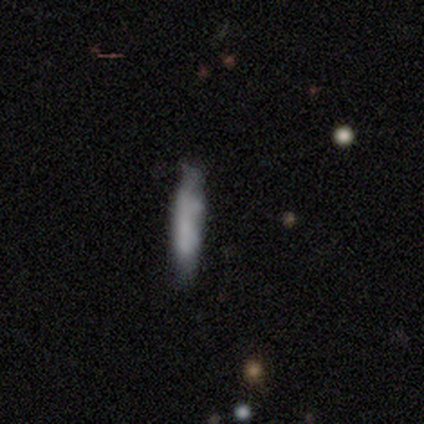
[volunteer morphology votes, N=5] type=smooth (40%, tied with star or artifact); roundness=cigar-shaped (100%); merging=none (33%, tied with minor disturbance and major disturbance).